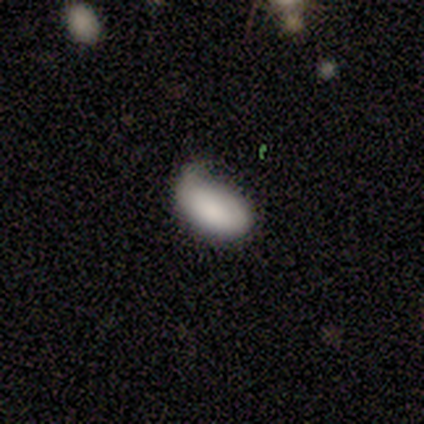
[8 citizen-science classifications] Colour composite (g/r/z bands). It shows a smooth galaxy with no disk features (100%) that is in between round and cigar-shaped (100%). Merging: minor disturbance (50%).